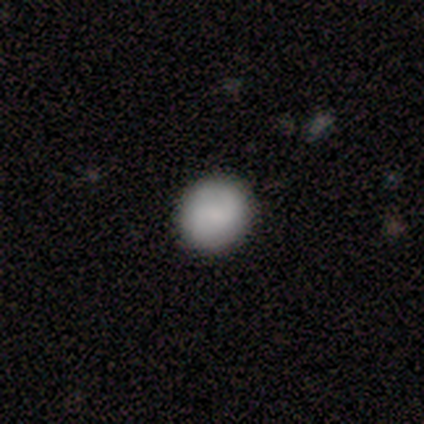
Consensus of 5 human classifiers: Consensus on every question: smooth or featured — smooth (100%); how rounded — round (100%); merging — none (100%).